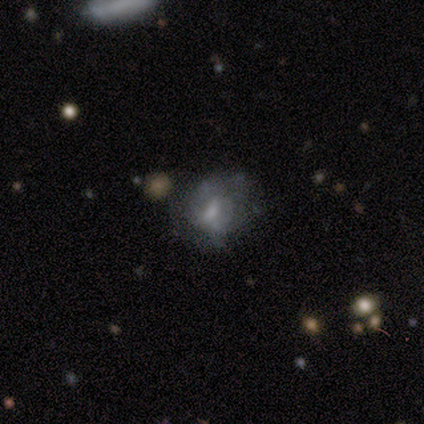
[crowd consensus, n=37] Overall: featured or disk (43%; smooth 41%). Edge-on disk: no (100%). Bar: no (44%; weak 38%). Spiral arms: no (69%; yes 31%). Bulge size: small (44%; moderate 38%). Merging: none (65%).